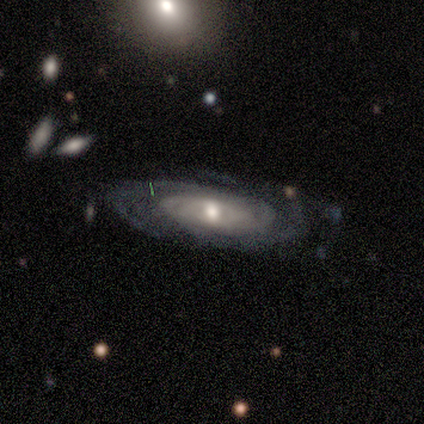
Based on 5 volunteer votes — This is likely a featured or disk galaxy (60%). It is likely not viewed edge-on (67%). Bar: clearly no (100%). Spiral arm pattern: clearly yes (100%). Spiral arm count: clearly 2 (100%). Spiral winding: clearly tight (100%). Central bulge: clearly moderate (100%). Merging: clearly none (100%).